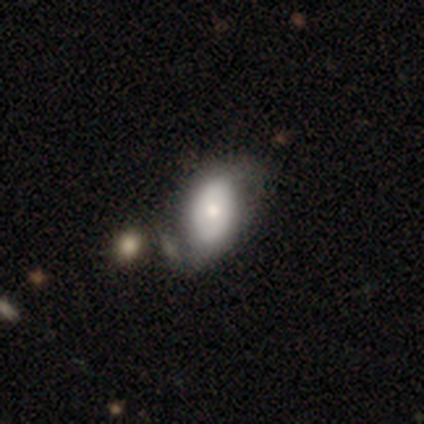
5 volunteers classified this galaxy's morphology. Volunteers were most divided on "merging": minor disturbance: 50%, none: 25%, major disturbance: 25%, merger: 0%. More confident: how rounded — round (67%); smooth or featured — smooth (60%).